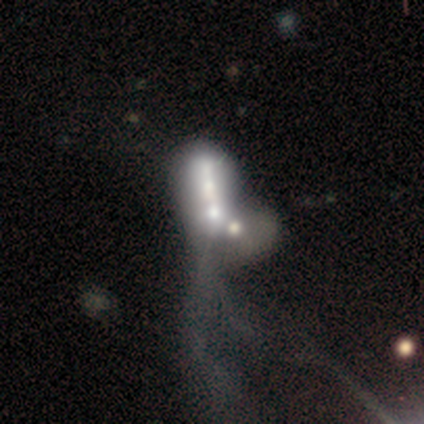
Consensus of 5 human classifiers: Smooth or featured? 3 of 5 (60%) said featured or disk. Edge-on disk? 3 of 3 (100%) said no. Bar? 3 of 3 (100%) said no. Spiral arms? 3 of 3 (100%) said no. Bulge size? 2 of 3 (67%) said moderate. Merging? 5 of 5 (100%) said merger.